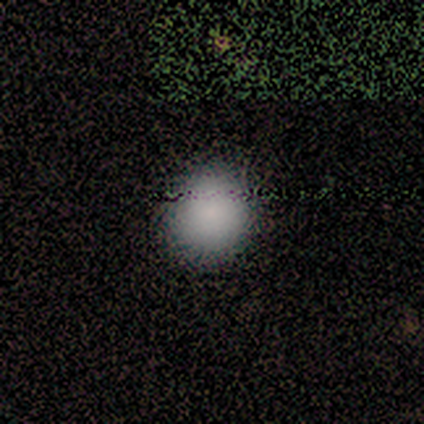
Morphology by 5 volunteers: type=smooth (60%); roundness=round (67%); merging=none (100%).